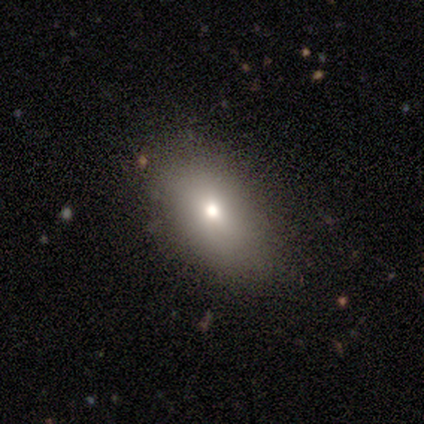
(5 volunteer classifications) A smooth galaxy with no disk features (80%) that is in between round and cigar-shaped (100%). Merging: none (100%).